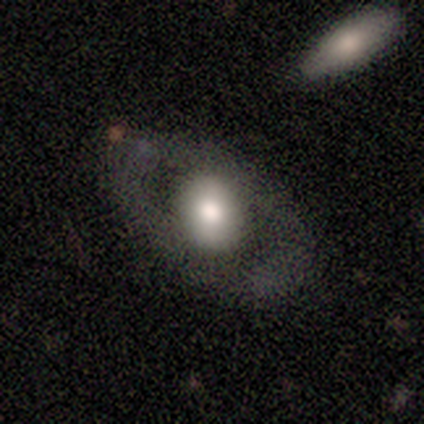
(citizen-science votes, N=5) Smooth or featured? 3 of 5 (60%) said featured or disk. Edge-on disk? 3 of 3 (100%) said no. Bar? 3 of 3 (100%) said no. Spiral arms? 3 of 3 (100%) said no. Bulge size? 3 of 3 (100%) said large. Merging? 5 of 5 (100%) said none.